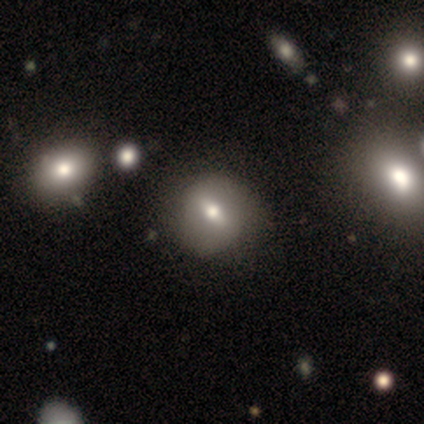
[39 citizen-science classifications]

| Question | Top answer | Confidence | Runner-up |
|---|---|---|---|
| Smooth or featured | smooth | 67% | featured or disk (28%) |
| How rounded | round | 65% | in between (31%) |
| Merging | none | 73% | merger (8%) |